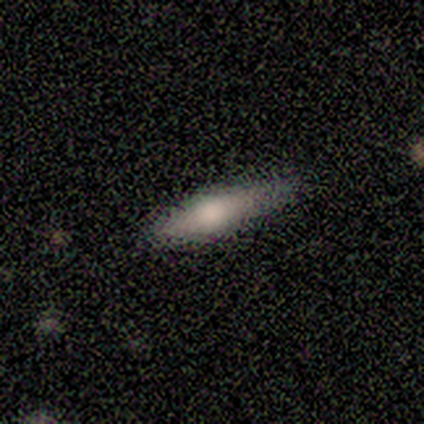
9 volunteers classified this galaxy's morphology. Smooth or featured? 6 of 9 (67%) said smooth. How rounded? 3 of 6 (50%, tied with cigar-shaped) said in between. Merging? 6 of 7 (86%) said none.